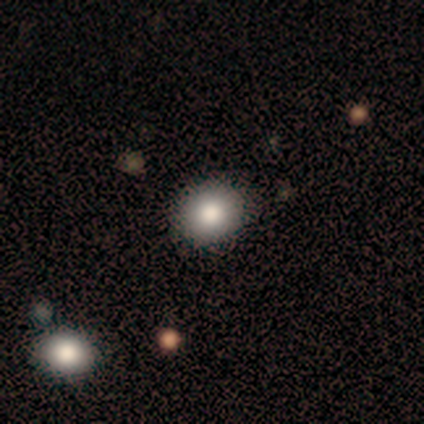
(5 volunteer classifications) Overall: smooth (80%). How rounded: round (100%). Merging: none (100%).